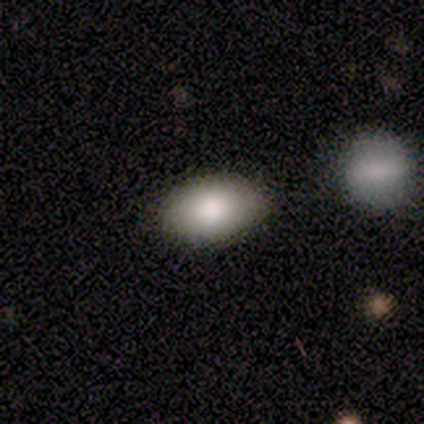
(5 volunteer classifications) Q: Smooth or featured?
A: smooth (100%)
Q: How rounded?
A: in between (100%)
Q: Merging?
A: none (100%)